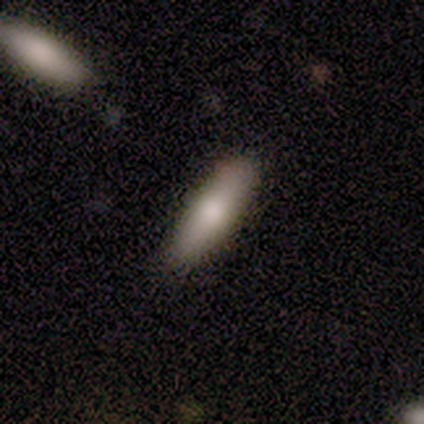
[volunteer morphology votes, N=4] smooth 75%, featured or disk 25%, star or artifact 0%. Down the decision tree: how rounded — in between (67%); merging — none (100%).